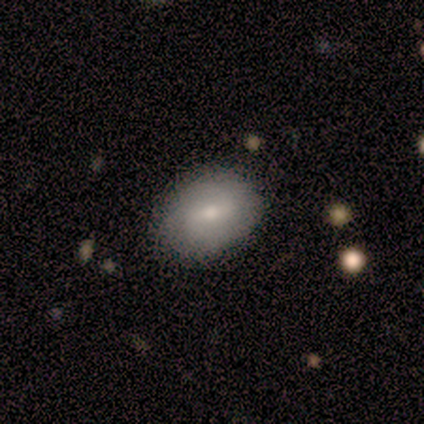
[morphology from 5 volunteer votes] smooth_or_featured: smooth (p=0.60) [alt: featured or disk p=0.40]
how_rounded: in between (p=0.67) [alt: round p=0.33]
merging: none (p=1.00)